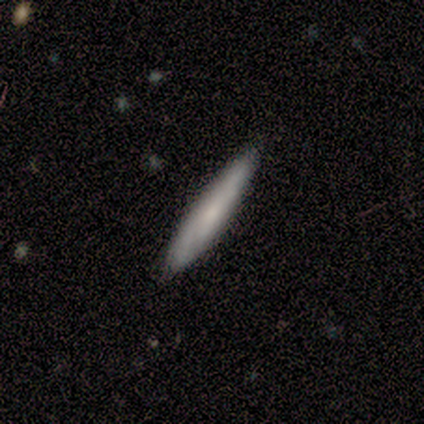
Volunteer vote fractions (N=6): Smooth or featured?
  - smooth: 83% *
  - star or artifact: 17%
  - featured or disk: 0%
How rounded?
  - cigar-shaped: 100% *
  - round: 0%
  - in between: 0%
Merging?
  - none: 80% *
  - minor disturbance: 20%
  - major disturbance: 0%
  - merger: 0%